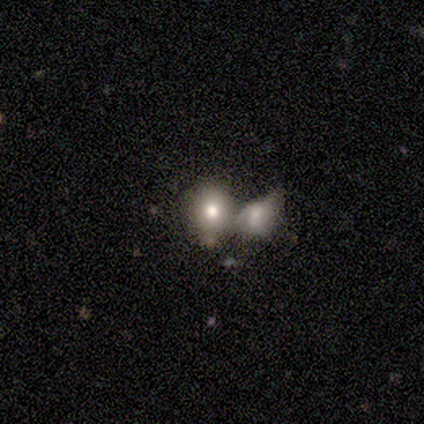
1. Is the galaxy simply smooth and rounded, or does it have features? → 80% smooth, 20% featured or disk, 0% star or artifact.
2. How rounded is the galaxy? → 75% in between, 25% round, 0% cigar-shaped.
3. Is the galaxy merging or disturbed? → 80% merger, 20% none, 0% minor disturbance, 0% major disturbance.